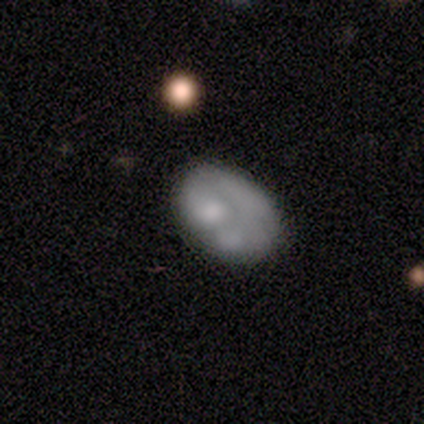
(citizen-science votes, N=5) Smooth or featured? 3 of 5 (60%) said smooth. How rounded? 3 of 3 (100%) said in between. Merging? 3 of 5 (60%) said minor disturbance.